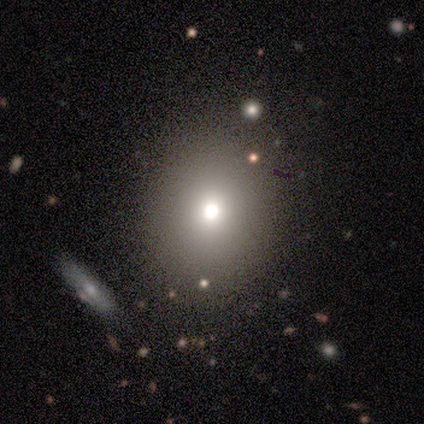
Overall: smooth (80%). How rounded: round (75%). Merging: none (50%; minor disturbance 25%).